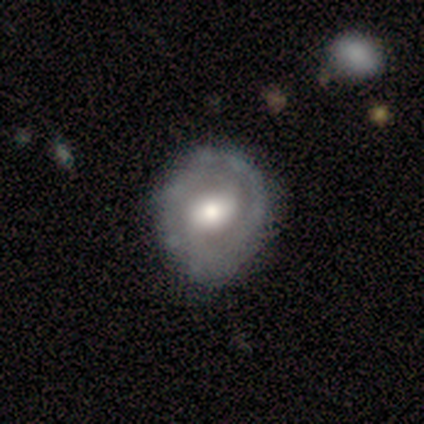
Smooth or featured: featured or disk — 65% (smooth — 32%)
Edge-on disk: no — 92% (yes — 8%)
Bar: no — 45% (weak — 41%)
Spiral arms: yes — 59% (no — 41%)
Spiral winding: tight — 46% (medium — 38%)
Spiral arm count: can't tell — 46% (2 — 31%)
Bulge size: moderate — 59% (large — 36%)
Merging: none — 72% (minor disturbance — 22%)